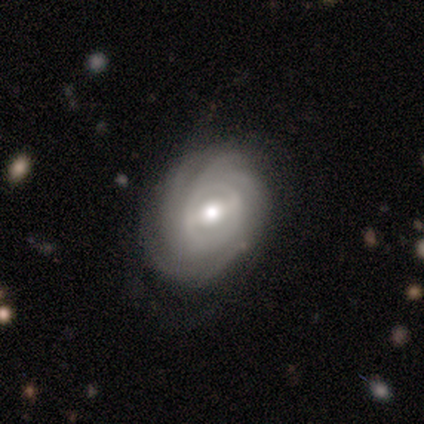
Morphology: type=featured or disk (100%); edge-on=no (100%); bar=strong (67%); spiral arms=yes (100%); winding=tight (78%); arm count=can't tell (44%); bulge=moderate (89%); merging=none (67%).